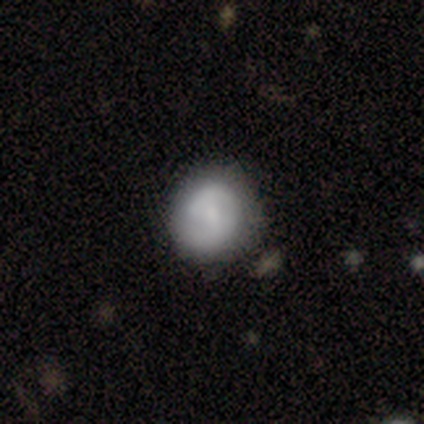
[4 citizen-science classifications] Smooth or featured: featured or disk — 75% (smooth — 25%)
Edge-on disk: no — 100%
Bar: no — 67% (weak — 33%)
Spiral arms: yes — 67% (no — 33%)
Spiral winding: tight — 50% (tied with loose — 50%)
Spiral arm count: 2 — 100%
Bulge size: dominant — 33% (tied with small — 33%; none — 33%)
Merging: none — 100%